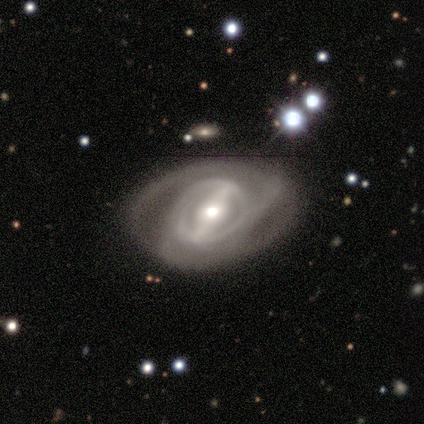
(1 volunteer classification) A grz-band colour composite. It shows a featured or disk galaxy (100%) with a weak bar (100%), tight (100%) spiral arms (100%) and a large central bulge (100%). Merging: none (100%).